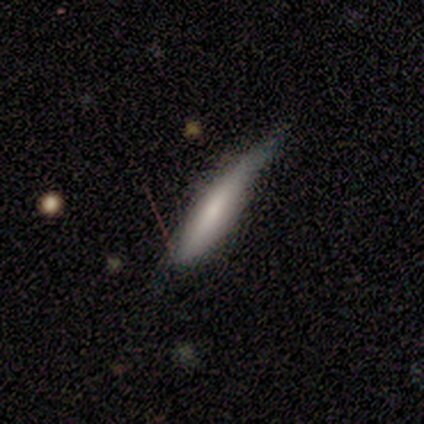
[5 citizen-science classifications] Smooth or featured: smooth — 80% (featured or disk — 20%)
How rounded: cigar-shaped — 100%
Merging: minor disturbance — 60% (none — 40%)